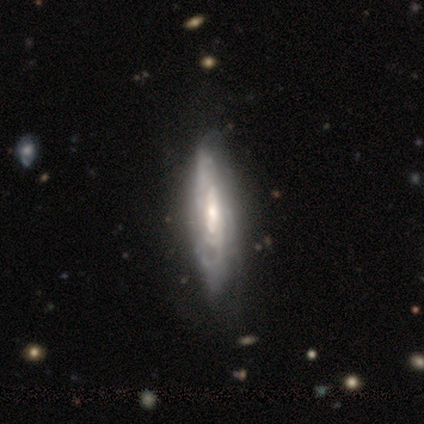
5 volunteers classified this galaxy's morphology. Smooth or featured?
  - featured or disk: 80% *
  - smooth: 20%
  - star or artifact: 0%
Edge-on disk?
  - no: 100% *
  - yes: 0%
Bar?
  - weak: 50% *
  - strong: 25%
  - no: 25%
Spiral arms?
  - yes: 100% *
  - no: 0%
Spiral winding?
  - tight: 75% *
  - medium: 25%
  - loose: 0%
Spiral arm count?
  - 4: 75% *
  - 2: 25%
  - 1: 0%
  - 3: 0%
  - more than 4: 0%
  - can't tell: 0%
Bulge size?
  - moderate: 75% *
  - small: 25%
  - dominant: 0%
  - large: 0%
  - none: 0%
Merging?
  - none: 80% *
  - minor disturbance: 20%
  - major disturbance: 0%
  - merger: 0%